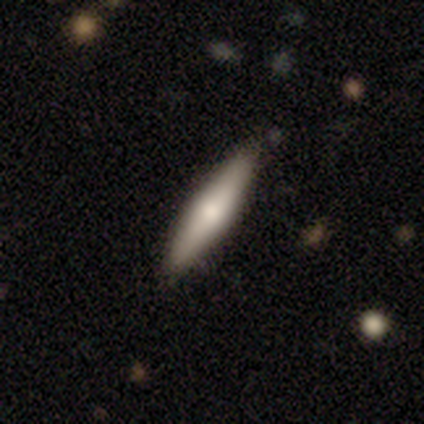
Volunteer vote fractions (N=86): smooth 58%, featured or disk 41%, star or artifact 1%. Down the decision tree: how rounded — cigar-shaped (86%); merging — none (88%).